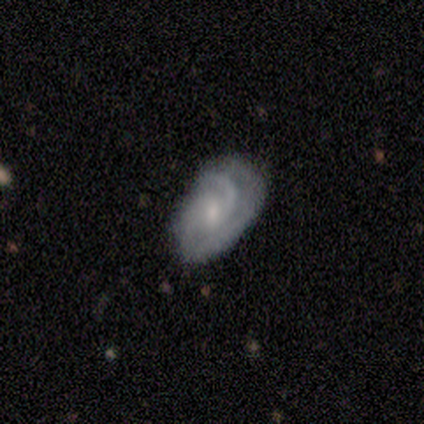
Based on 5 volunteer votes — Volunteers were most divided on "spiral winding" (2-way tie): tight: 50%, medium: 50%, loose: 0%; "spiral arm count" (2-way tie): 2: 50%, can't tell: 50%, 1: 0%, 3: 0%, 4: 0%, more than 4: 0%. More confident: smooth or featured — featured or disk (100%); edge-on disk — no (100%); merging — none (100%); spiral arms — yes (80%); bar — no (60%); bulge size — moderate (60%).